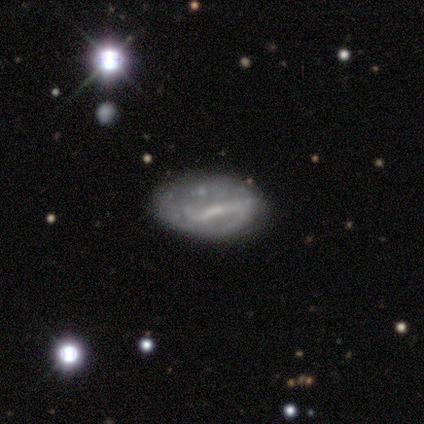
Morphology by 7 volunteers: Smooth or featured? featured or disk (100%)
Edge-on disk? no (86%)
Bar? weak (50%)
Spiral arms? yes (67%)
Spiral winding? medium (50%, tied with loose)
Spiral arm count? 2 (75%)
Bulge size? small (83%)
Merging? none (86%)